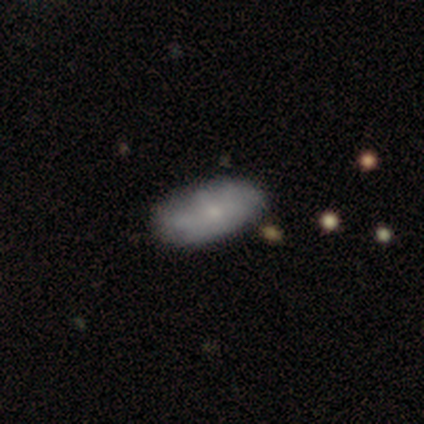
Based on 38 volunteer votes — A smooth galaxy with no disk features (66%) that is in between round and cigar-shaped (92%).

Vote fractions:
- Smooth or featured? smooth: 66% / featured or disk: 26% / star or artifact: 8%
- How rounded? in between: 92% / round: 8% / cigar-shaped: 0%
- Merging? none: 57% / minor disturbance: 34% / merger: 6% / major disturbance: 3%